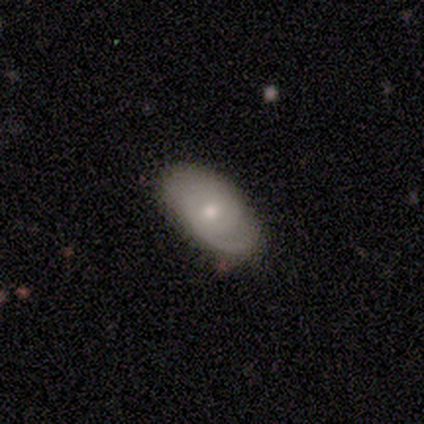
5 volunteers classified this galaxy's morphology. Smooth or featured?
  - featured or disk: 60% *
  - smooth: 40%
  - star or artifact: 0%
Edge-on disk?
  - no: 100% *
  - yes: 0%
Bar?
  - no: 100% *
  - strong: 0%
  - weak: 0%
Spiral arms?
  - yes: 100% *
  - no: 0%
Spiral winding?
  - tight: 67% *
  - medium: 33%
  - loose: 0%
Spiral arm count?
  - 1: 67% *
  - 2: 33%
  - 3: 0%
  - 4: 0%
  - more than 4: 0%
  - can't tell: 0%
Bulge size?
  - moderate: 67% *
  - small: 33%
  - dominant: 0%
  - large: 0%
  - none: 0%
Merging?
  - none: 60% *
  - minor disturbance: 40%
  - major disturbance: 0%
  - merger: 0%